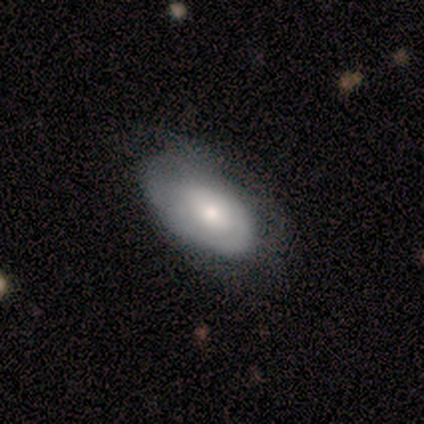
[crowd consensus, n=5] Morphology: type=smooth (80%); roundness=in between (100%); merging=none (40%, tied with minor disturbance).